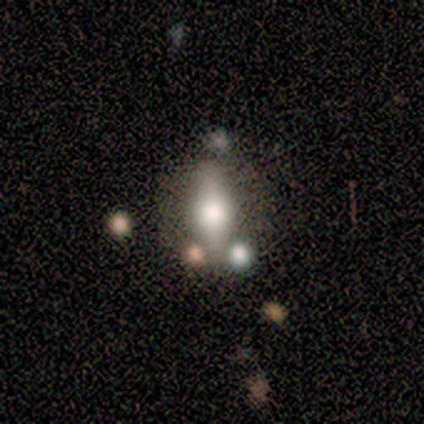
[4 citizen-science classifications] Overall: smooth (50%, tied with featured or disk). How rounded: in between (100%). Merging: none (75%).